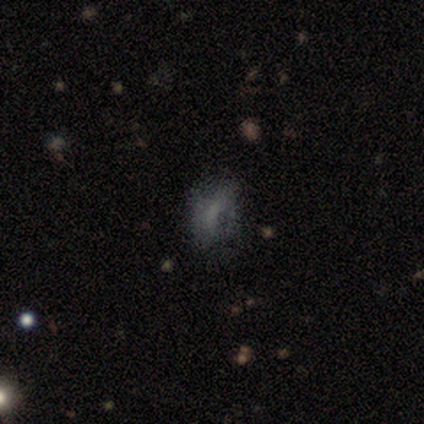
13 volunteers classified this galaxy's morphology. This is marginally a smooth galaxy (38%, tied with star or artifact). How rounded: clearly in between (80%). Merging: possibly none (50%).